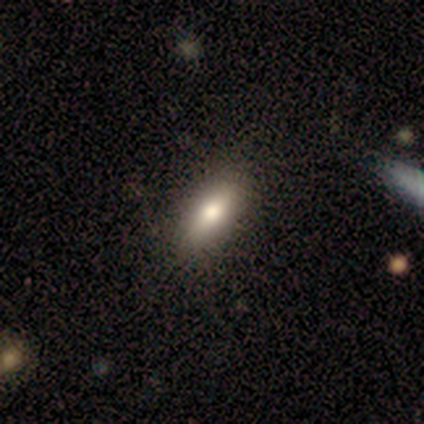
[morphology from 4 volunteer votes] A smooth galaxy with no disk features (75%) that is in between round and cigar-shaped (100%).

Vote fractions:
- Smooth or featured? smooth: 75% / featured or disk: 25% / star or artifact: 0%
- How rounded? in between: 100% / round: 0% / cigar-shaped: 0%
- Merging? none: 75% / major disturbance: 25% / minor disturbance: 0% / merger: 0%